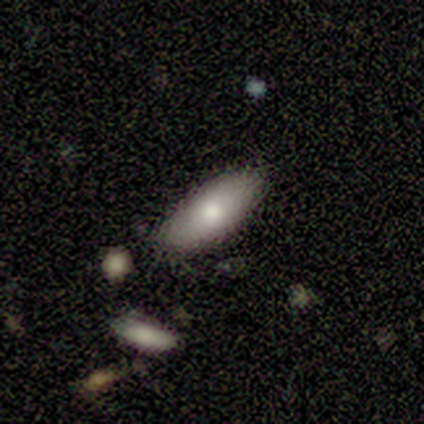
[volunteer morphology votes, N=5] type=smooth (60%); roundness=in between (100%); merging=none (60%).